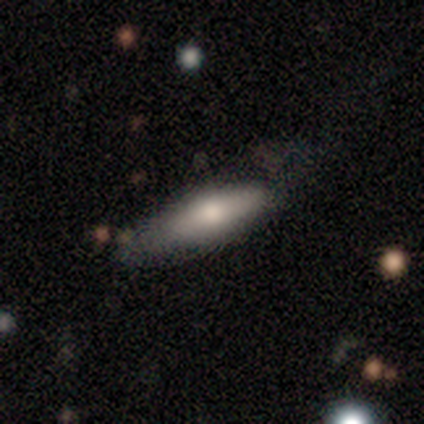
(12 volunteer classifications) smooth_or_featured: smooth (p=0.75) [alt: star or artifact p=0.17]
how_rounded: in between (p=0.67) [alt: cigar-shaped p=0.33]
merging: none (p=0.50) [alt: minor disturbance p=0.40]